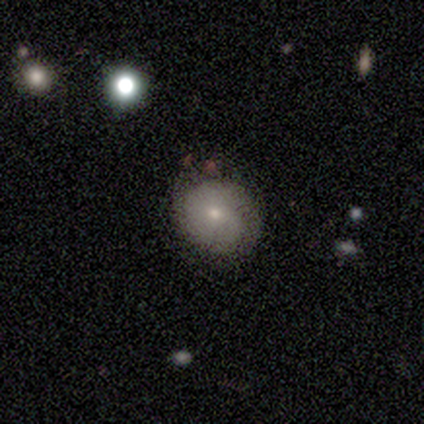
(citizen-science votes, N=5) smooth-or-featured: smooth: 100% | featured or disk: 0% | star or artifact: 0%
  how-rounded: round: 100% | in between: 0% | cigar-shaped: 0%
  merging: none: 80% | minor disturbance: 20% | major disturbance: 0% | merger: 0%